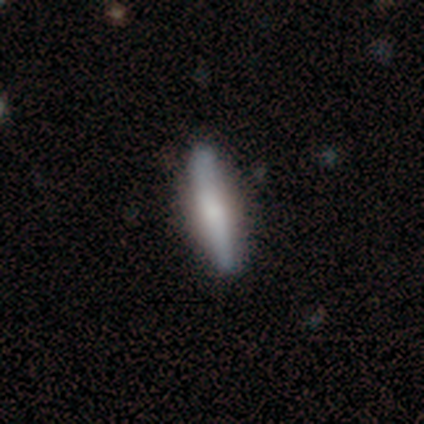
smooth 51%, featured or disk 44%, star or artifact 5%. Down the decision tree: how rounded — cigar-shaped (85%); merging — none (92%).